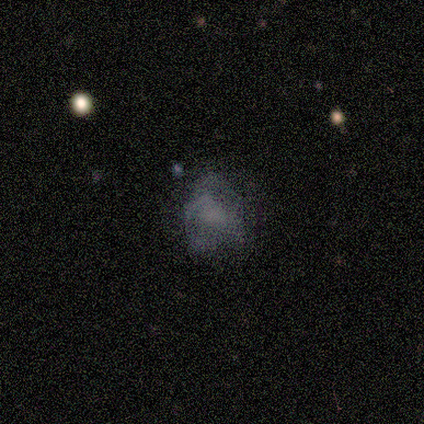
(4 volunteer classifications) Overall: star or artifact (50%; smooth 25%).